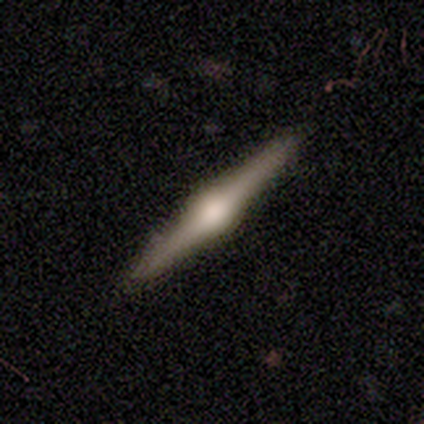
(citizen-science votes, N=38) This appears to be a featured or disk galaxy (74%) viewed edge-on (100%) with a rounded central bulge (100%). Merging: none (94%).